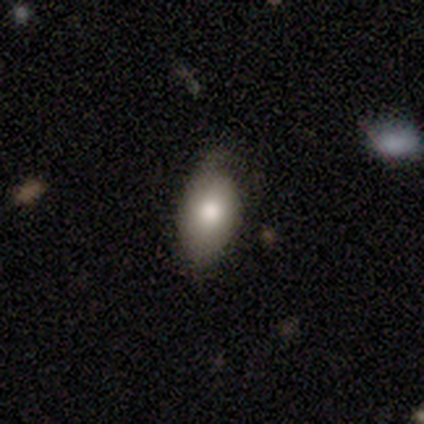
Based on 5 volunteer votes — Volunteers were most divided on "merging": minor disturbance: 75%, none: 25%, major disturbance: 0%, merger: 0%. More confident: how rounded — in between (100%); smooth or featured — smooth (80%).